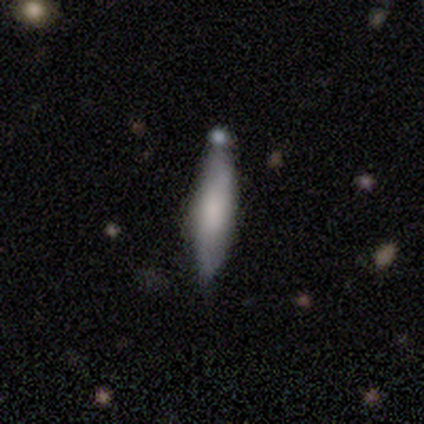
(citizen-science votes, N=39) smooth-or-featured: smooth: 62% | featured or disk: 28% | star or artifact: 10%
  how-rounded: cigar-shaped: 67% | in between: 29% | round: 4%
  merging: none: 51% | minor disturbance: 31% | merger: 14% | major disturbance: 3%